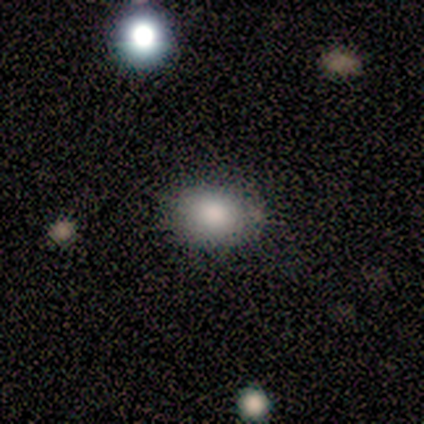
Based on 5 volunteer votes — Smooth or featured: smooth — 100%
How rounded: round — 60% (in between — 40%)
Merging: none — 100%